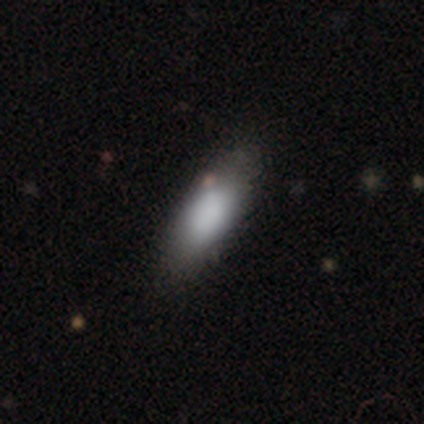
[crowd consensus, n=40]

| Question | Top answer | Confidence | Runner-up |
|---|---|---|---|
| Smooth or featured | smooth | 92% | featured or disk (8%) |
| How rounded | in between | 73% | cigar-shaped (24%) |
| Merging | none | 45% | minor disturbance (10%) |